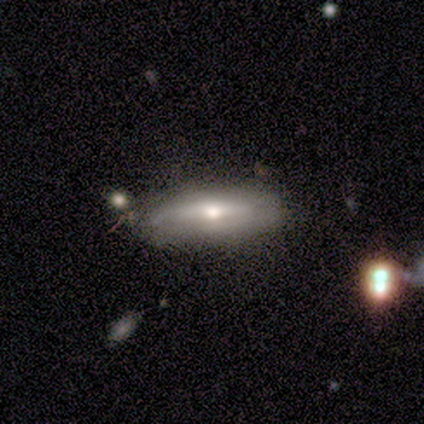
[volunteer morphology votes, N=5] Volunteers were most divided on "edge-on disk": yes: 75%, no: 25%. More confident: edge-on bulge — rounded (100%); smooth or featured — featured or disk (80%); merging — none (80%).